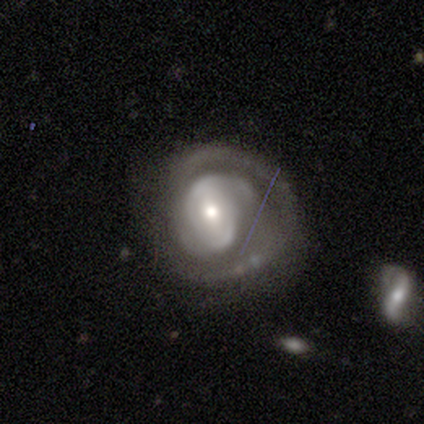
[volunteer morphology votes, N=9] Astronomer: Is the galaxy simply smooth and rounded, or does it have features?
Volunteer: featured or disk — 89%.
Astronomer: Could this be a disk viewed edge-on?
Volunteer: no — 88%.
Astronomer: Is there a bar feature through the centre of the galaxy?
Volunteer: strong — 43%, tied with weak at 43%.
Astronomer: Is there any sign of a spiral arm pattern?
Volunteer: yes — 100%.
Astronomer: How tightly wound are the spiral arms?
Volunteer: tight — 71%.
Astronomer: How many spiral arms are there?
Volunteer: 2 — 100%.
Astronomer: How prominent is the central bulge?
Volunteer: moderate — 57%.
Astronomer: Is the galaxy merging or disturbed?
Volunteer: none — 56% (runner-up: minor disturbance, 33%).